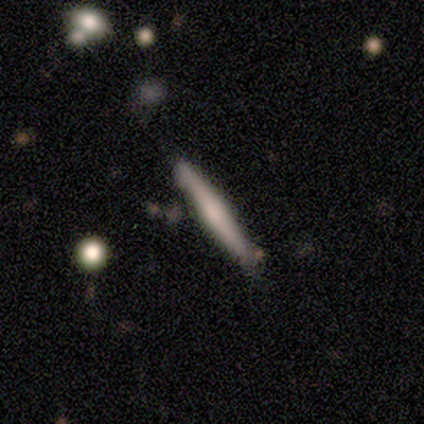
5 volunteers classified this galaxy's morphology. Smooth or featured?
  - smooth: 80% *
  - featured or disk: 20%
  - star or artifact: 0%
How rounded?
  - cigar-shaped: 100% *
  - round: 0%
  - in between: 0%
Merging?
  - none: 100% *
  - minor disturbance: 0%
  - major disturbance: 0%
  - merger: 0%